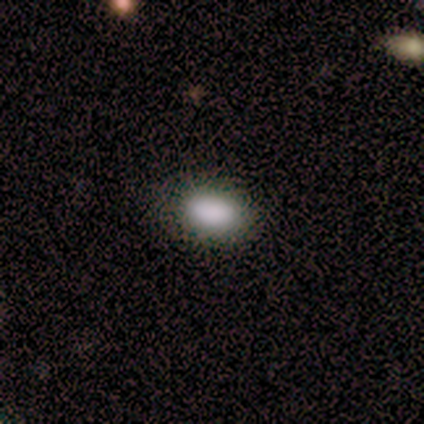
A smooth galaxy with no disk features (100%) that is in between round and cigar-shaped (80%).

Vote fractions:
- Smooth or featured? smooth: 100% / featured or disk: 0% / star or artifact: 0%
- How rounded? in between: 80% / round: 20% / cigar-shaped: 0%
- Merging? none: 100% / minor disturbance: 0% / major disturbance: 0% / merger: 0%